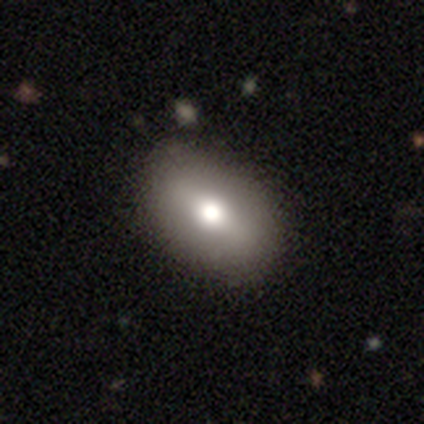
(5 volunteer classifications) Overall: smooth (60%; featured or disk 40%). How rounded: in between (100%). Merging: none (100%).